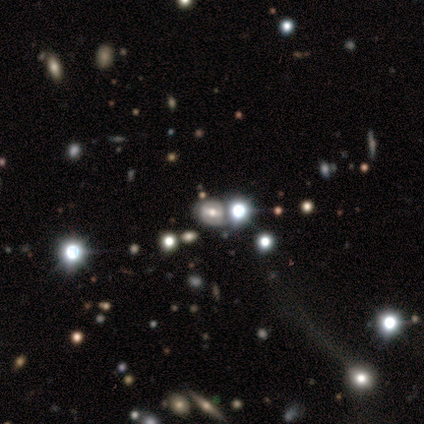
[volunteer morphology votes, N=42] A featured or disk galaxy (43%) with a weak bar (50%), no spiral arms (62%) and a moderate central bulge (50%).

Vote fractions:
- Smooth or featured? featured or disk: 43% / smooth: 31% / star or artifact: 26%
- Edge-on disk? no: 89% / yes: 11%
- Bar? weak: 50% / strong: 25% / no: 25%
- Spiral arms? no: 62% / yes: 38%
- Bulge size? moderate: 50% / large: 38% / small: 6% / none: 6% / dominant: 0%
- Merging? none: 42% / merger: 32% / minor disturbance: 23% / major disturbance: 3%